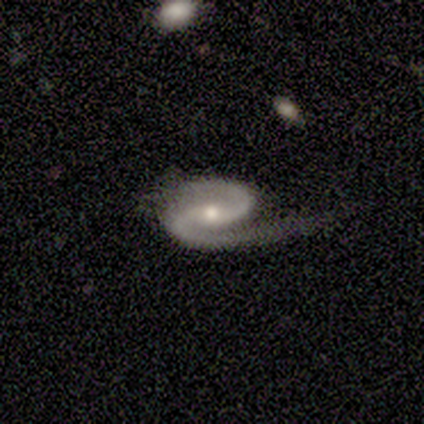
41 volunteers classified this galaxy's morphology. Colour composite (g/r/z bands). It shows a featured or disk galaxy (93%) with a weak bar (44%, tied with no), 2 (97%) medium (49%) spiral arms (97%) and a moderate central bulge (50%, tied with small). Merging: none (55%).